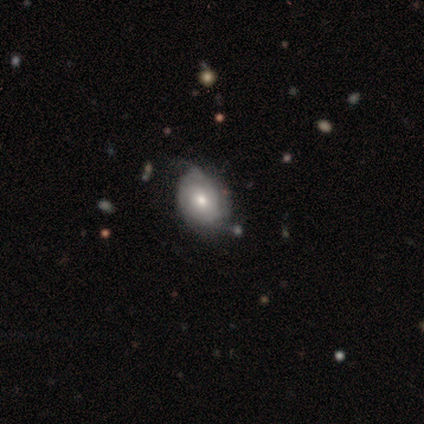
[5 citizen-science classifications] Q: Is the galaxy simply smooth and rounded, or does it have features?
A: smooth — 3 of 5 (60%).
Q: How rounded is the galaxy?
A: in between — 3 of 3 (100%).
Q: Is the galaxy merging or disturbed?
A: none — 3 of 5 (60%).